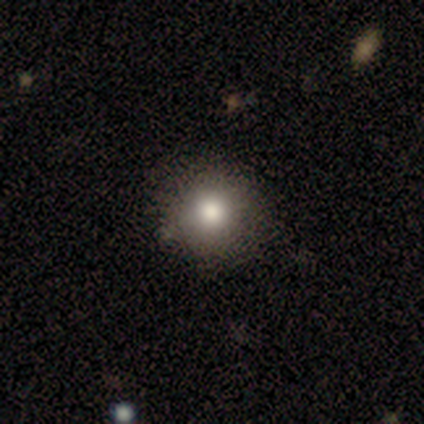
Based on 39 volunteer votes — This appears to be a smooth galaxy with no disk features (79%) that is round (94%). Merging: none (91%).